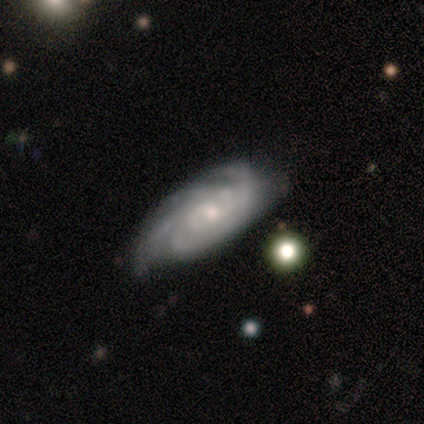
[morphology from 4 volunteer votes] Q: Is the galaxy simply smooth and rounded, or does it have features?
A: featured or disk — 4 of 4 (100%).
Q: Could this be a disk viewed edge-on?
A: no — 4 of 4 (100%).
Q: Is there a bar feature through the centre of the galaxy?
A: no — 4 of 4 (100%).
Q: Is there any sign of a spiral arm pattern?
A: yes — 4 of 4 (100%).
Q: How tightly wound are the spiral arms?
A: tight — 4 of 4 (100%).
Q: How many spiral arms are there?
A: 4 — 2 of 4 (50%).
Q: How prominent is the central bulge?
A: small — 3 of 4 (75%).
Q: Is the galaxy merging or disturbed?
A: none — 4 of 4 (100%).